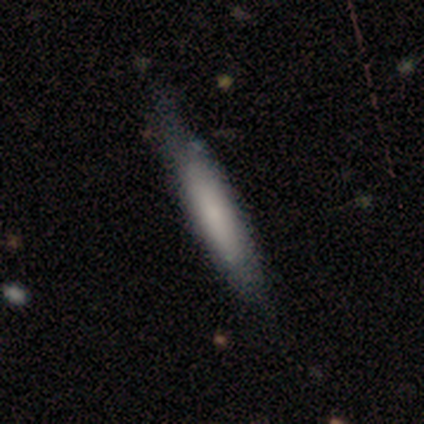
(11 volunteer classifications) A smooth galaxy with no disk features (64%) that is cigar-shaped (100%). Merging: none (50%, tied with minor disturbance).